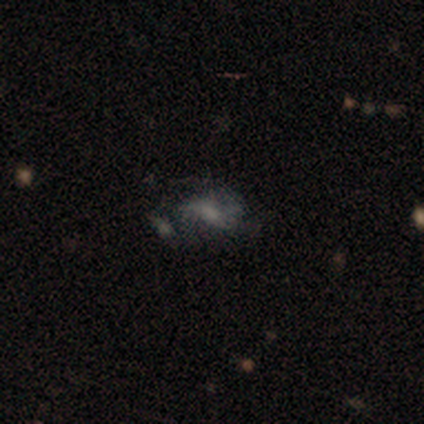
smooth 50% (tied), featured or disk 50% (tied), star or artifact 0%. Down the decision tree: how rounded — round (100%); merging — major disturbance (50%, tied with merger).